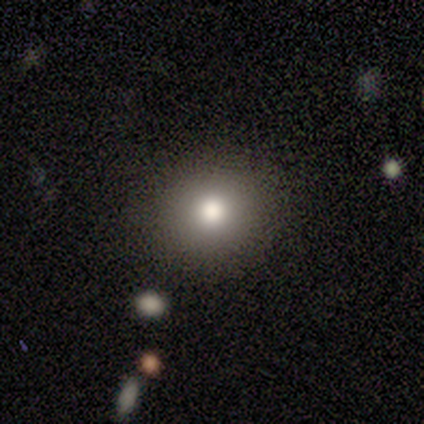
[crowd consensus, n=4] smooth_or_featured: smooth (p=0.75) [alt: featured or disk p=0.25]
how_rounded: round (p=0.67) [alt: in between p=0.33]
merging: none (p=1.00)